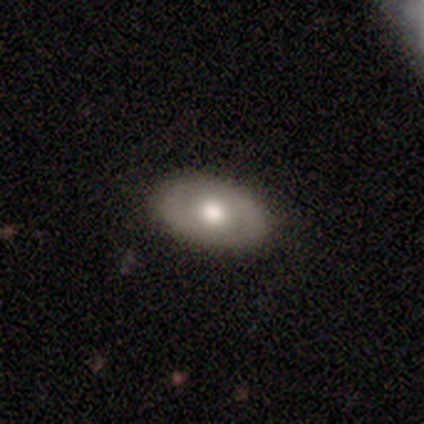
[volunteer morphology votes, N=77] This is possibly a smooth galaxy (56%). How rounded: clearly in between (81%). Merging: marginally none (44%).